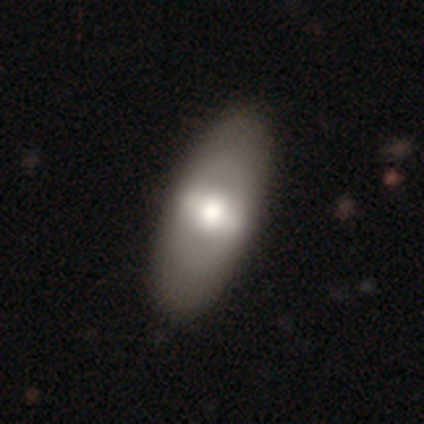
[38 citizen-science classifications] Morphology: type=smooth (50%, tied with featured or disk); roundness=in between (89%); merging=none (47%).